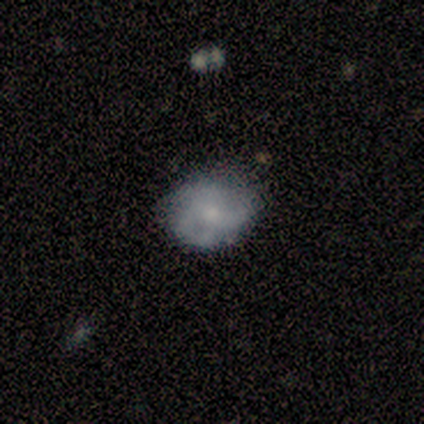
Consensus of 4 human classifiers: Volunteers were most divided on "bulge size" (3-way tie): moderate: 33%, small: 33%, none: 33%, dominant: 0%, large: 0%. More confident: edge-on disk — no (100%); bar — no (100%); spiral winding — tight (100%); spiral arm count — 2 (100%); smooth or featured — featured or disk (75%); merging — none (75%); spiral arms — yes (67%).